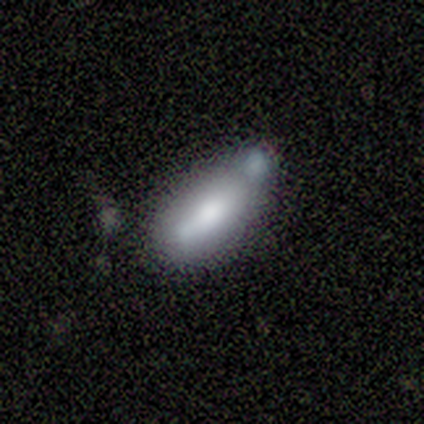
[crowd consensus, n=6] This is clearly a smooth galaxy (83%). How rounded: clearly in between (80%). Merging: possibly minor disturbance (50%).